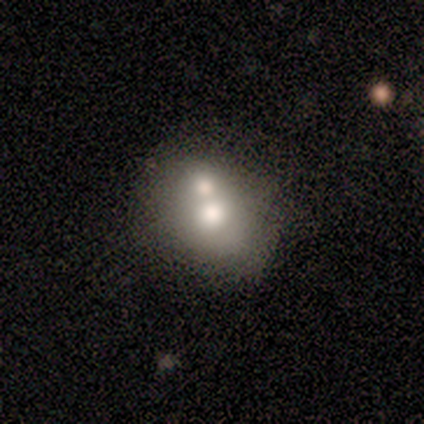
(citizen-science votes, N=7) A smooth galaxy with no disk features (86%) that is round (83%).

Vote fractions:
- Smooth or featured? smooth: 86% / featured or disk: 14% / star or artifact: 0%
- How rounded? round: 83% / in between: 17% / cigar-shaped: 0%
- Merging? merger: 57% / none: 29% / major disturbance: 14% / minor disturbance: 0%